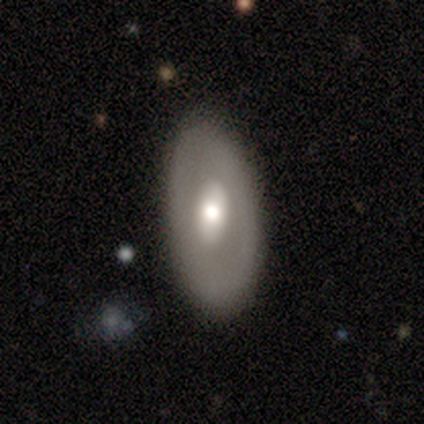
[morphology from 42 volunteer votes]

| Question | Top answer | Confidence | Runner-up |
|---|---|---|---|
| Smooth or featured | featured or disk | 55% | smooth (40%) |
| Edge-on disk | no | 91% | yes (9%) |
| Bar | no | 62% | weak (33%) |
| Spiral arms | no | 81% | yes (19%) |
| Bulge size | moderate | 71% | large (14%) |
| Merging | none | 82% | minor disturbance (10%) |